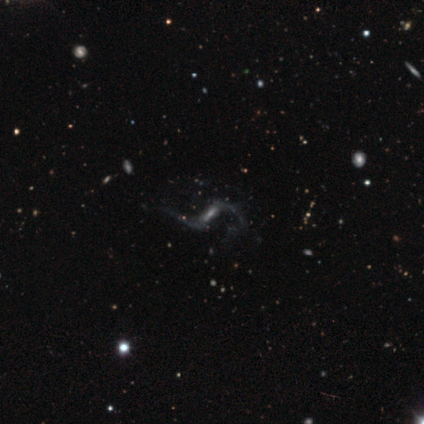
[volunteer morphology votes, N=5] Overall: featured or disk (100%). Edge-on disk: no (100%). Bar: strong (60%; weak 20%). Spiral arms: yes (100%). Spiral arm count: 2 (80%). Spiral winding: loose (100%). Bulge size: moderate (40%, tied with none). Merging: none (80%).